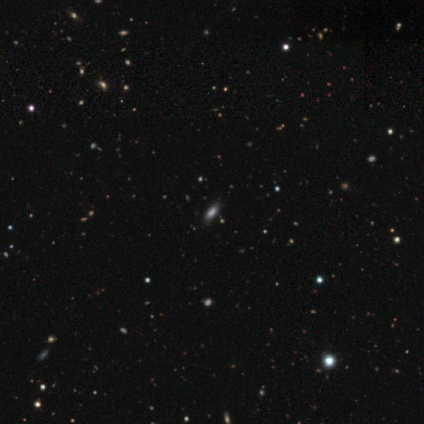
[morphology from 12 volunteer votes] Smooth or featured? 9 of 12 (75%) said smooth. How rounded? 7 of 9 (78%) said in between. Merging? 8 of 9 (89%) said none.